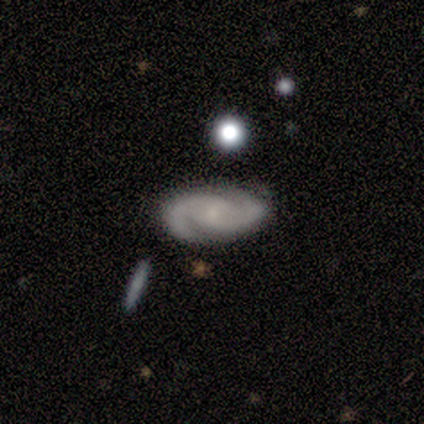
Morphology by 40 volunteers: Q: Smooth or featured?
A: featured or disk (88%); runner-up: star or artifact (10%)
Q: Edge-on disk?
A: no (97%); runner-up: yes (3%)
Q: Bar?
A: no (59%); runner-up: weak (35%)
Q: Spiral arms?
A: yes (100%)
Q: Spiral winding?
A: medium (50%); runner-up: tight (47%)
Q: Spiral arm count?
A: 2 (100%)
Q: Bulge size?
A: small (50%); runner-up: none (35%)
Q: Merging?
A: none (86%); runner-up: minor disturbance (11%)